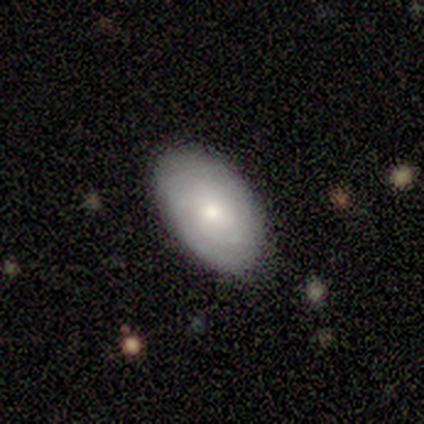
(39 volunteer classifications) smooth_or_featured: smooth (p=0.62) [alt: featured or disk p=0.33]
how_rounded: in between (p=0.88) [alt: round p=0.08]
merging: none (p=0.76) [alt: minor disturbance p=0.22]